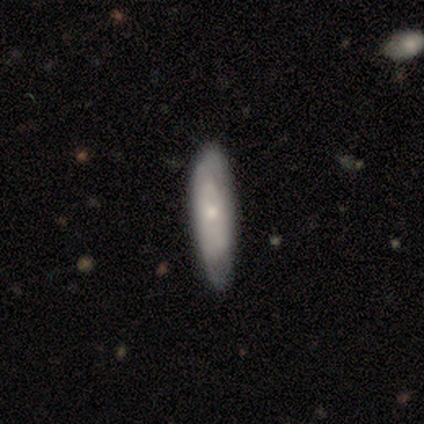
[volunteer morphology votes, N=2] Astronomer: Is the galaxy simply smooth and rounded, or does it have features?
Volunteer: featured or disk — 100%.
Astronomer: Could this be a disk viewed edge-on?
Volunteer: yes — 50%, tied with no at 50%.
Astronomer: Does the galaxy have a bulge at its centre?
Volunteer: none — 100%.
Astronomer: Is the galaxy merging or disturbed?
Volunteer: minor disturbance — 50%, tied with major disturbance at 50%.